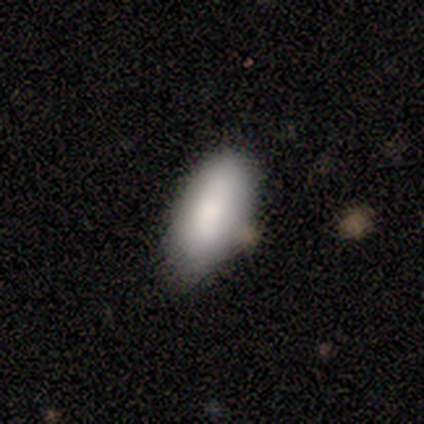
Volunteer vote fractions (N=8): A smooth galaxy with no disk features (100%) that is in between round and cigar-shaped (100%).

Vote fractions:
- Smooth or featured? smooth: 100% / featured or disk: 0% / star or artifact: 0%
- How rounded? in between: 100% / round: 0% / cigar-shaped: 0%
- Merging? none: 62% / minor disturbance: 38% / major disturbance: 0% / merger: 0%